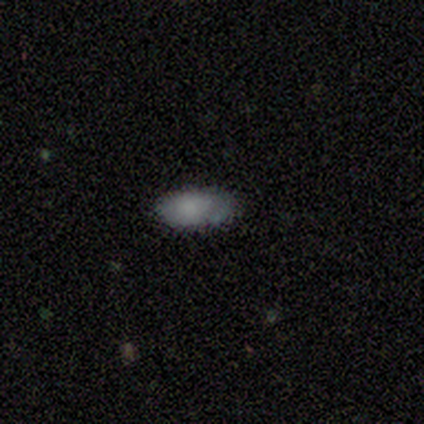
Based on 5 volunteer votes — This appears to be a smooth galaxy with no disk features (100%) that is in between round and cigar-shaped (100%). Merging: none (80%).